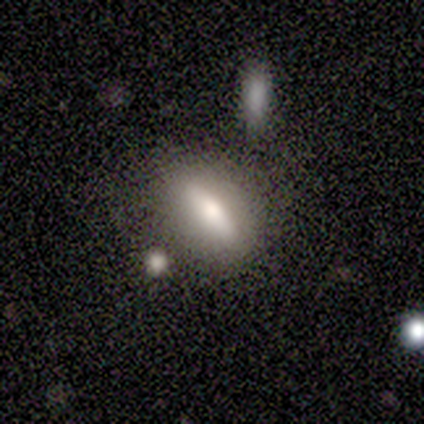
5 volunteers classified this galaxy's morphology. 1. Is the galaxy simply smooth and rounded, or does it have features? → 60% smooth, 40% featured or disk, 0% star or artifact.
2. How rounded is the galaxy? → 67% cigar-shaped, 33% in between, 0% round.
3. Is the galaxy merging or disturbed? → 60% none, 40% minor disturbance, 0% major disturbance, 0% merger.